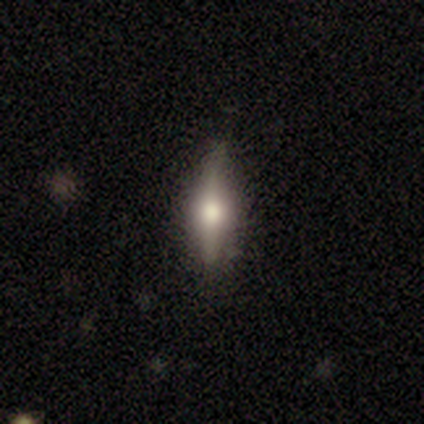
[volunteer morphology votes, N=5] Q: Smooth or featured?
A: featured or disk (80%); runner-up: smooth (20%)
Q: Edge-on disk?
A: yes (100%)
Q: Edge-on bulge?
A: rounded (100%)
Q: Merging?
A: none (100%)